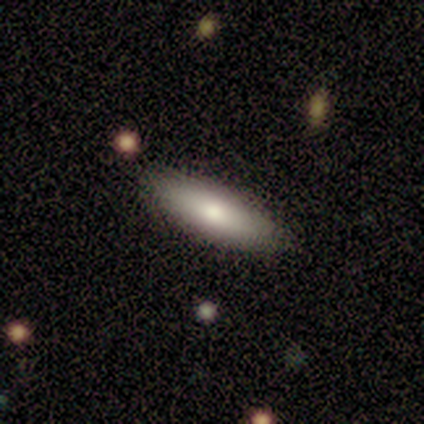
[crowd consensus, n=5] smooth_or_featured: smooth (p=1.00)
how_rounded: cigar-shaped (p=0.60) [alt: in between p=0.40]
merging: none (p=1.00)